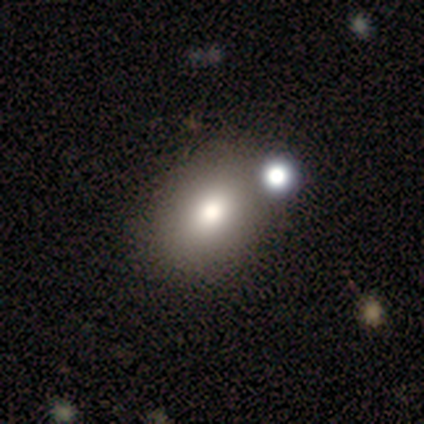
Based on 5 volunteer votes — Smooth or featured? 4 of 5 (80%) said smooth. How rounded? 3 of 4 (75%) said in between. Merging? 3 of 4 (75%) said none.